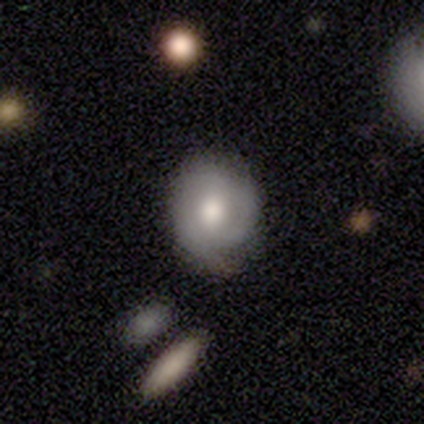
Smooth or featured: smooth — 55% (featured or disk — 39%)
How rounded: round — 67% (in between — 33%)
Merging: none — 78% (minor disturbance — 17%)